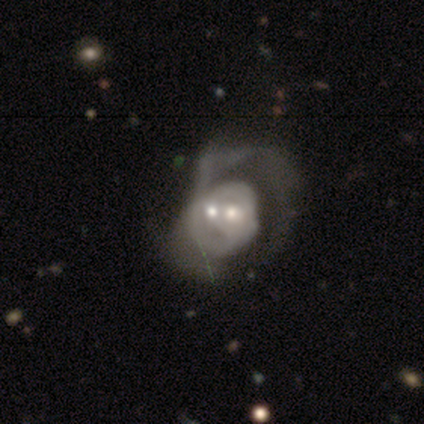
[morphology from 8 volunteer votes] Smooth or featured? featured or disk (75%)
Edge-on disk? no (100%)
Bar? no (100%)
Spiral arms? no (67%)
Bulge size? moderate (67%)
Merging? merger (75%)